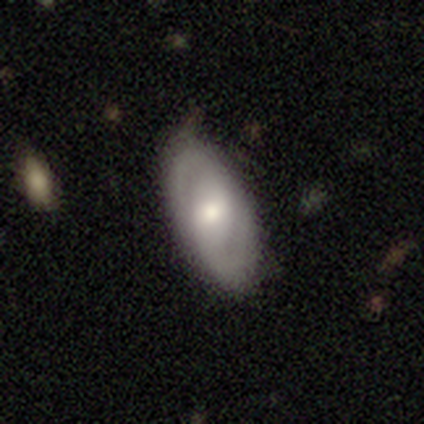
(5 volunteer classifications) Q: Smooth or featured?
A: featured or disk (80%); runner-up: smooth (20%)
Q: Edge-on disk?
A: no (75%); runner-up: yes (25%)
Q: Bar?
A: weak (100%)
Q: Spiral arms?
A: yes (100%)
Q: Spiral winding?
A: medium (67%); runner-up: tight (33%)
Q: Spiral arm count?
A: 2 (100%)
Q: Bulge size?
A: large (67%); runner-up: moderate (33%)
Q: Merging?
A: none (100%)